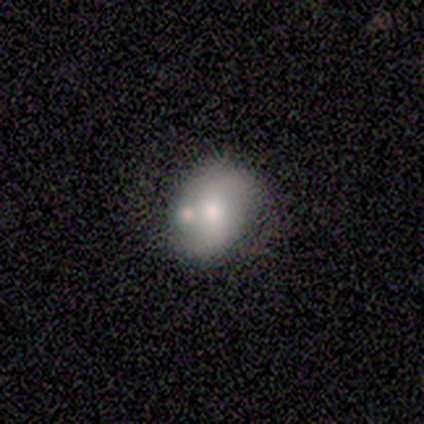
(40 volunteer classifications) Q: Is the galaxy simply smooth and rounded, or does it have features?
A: featured or disk — 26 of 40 (65%).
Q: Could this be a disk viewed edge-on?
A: no — 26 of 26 (100%).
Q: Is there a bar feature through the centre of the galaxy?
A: no — 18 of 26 (69%).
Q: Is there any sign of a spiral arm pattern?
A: yes — 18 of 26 (69%).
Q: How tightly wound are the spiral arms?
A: loose — 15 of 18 (83%).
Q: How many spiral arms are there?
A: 2 — 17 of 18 (94%).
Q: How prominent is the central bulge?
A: moderate — 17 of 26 (65%).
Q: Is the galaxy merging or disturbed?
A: none — 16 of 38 (42%).